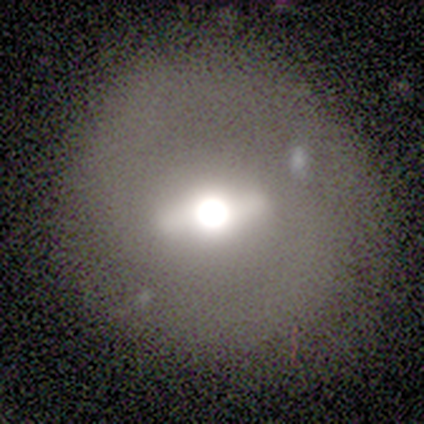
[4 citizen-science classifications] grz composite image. It shows a featured or disk galaxy (75%) with a strong bar (100%), no spiral arms (100%) and a moderate central bulge (100%). Merging: none (100%).